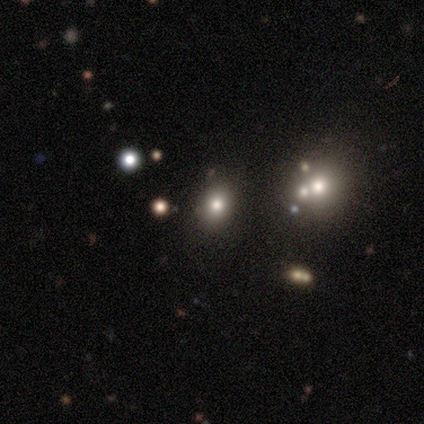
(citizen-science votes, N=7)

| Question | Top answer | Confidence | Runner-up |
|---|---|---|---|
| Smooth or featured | smooth | 71% | featured or disk (14%) |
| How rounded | round | 60% | in between (40%) |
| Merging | none | 67% | minor disturbance (17%) |